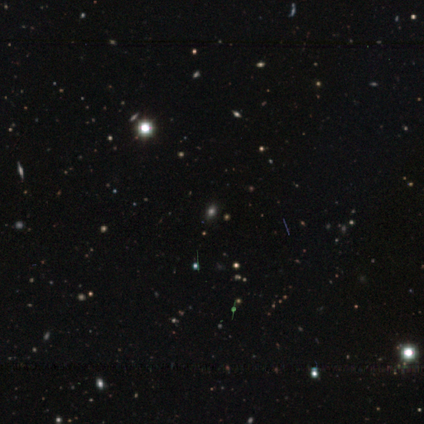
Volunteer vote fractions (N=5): star or artifact 60%, smooth 40%, featured or disk 0%.